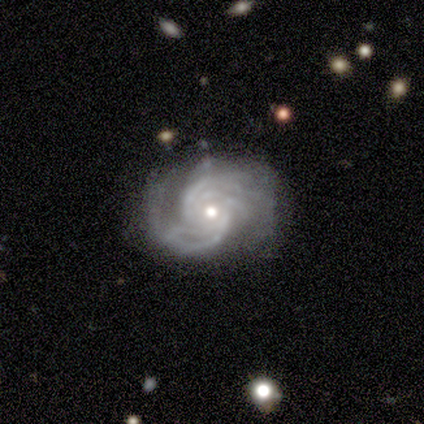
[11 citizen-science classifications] Smooth or featured?
  - featured or disk: 91% *
  - star or artifact: 9%
  - smooth: 0%
Edge-on disk?
  - no: 100% *
  - yes: 0%
Bar?
  - no: 70% *
  - weak: 20%
  - strong: 10%
Spiral arms?
  - yes: 100% *
  - no: 0%
Spiral winding?
  - tight: 60% *
  - medium: 30%
  - loose: 10%
Spiral arm count?
  - 2: 30% * (tied)
  - can't tell: 30% * (tied)
  - 3: 20%
  - 4: 20%
  - 1: 0%
  - more than 4: 0%
Bulge size?
  - moderate: 70% *
  - small: 30%
  - dominant: 0%
  - large: 0%
  - none: 0%
Merging?
  - none: 80% *
  - minor disturbance: 20%
  - major disturbance: 0%
  - merger: 0%